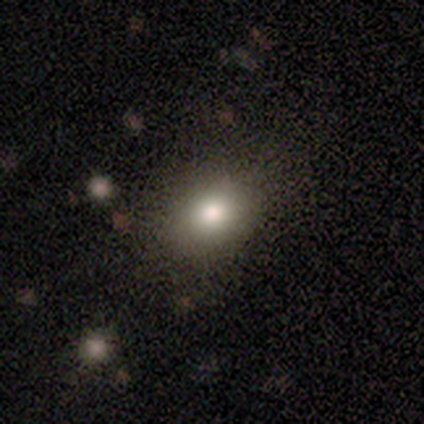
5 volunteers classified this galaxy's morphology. smooth-or-featured: smooth: 100% | featured or disk: 0% | star or artifact: 0%
  how-rounded: round: 60% | in between: 40% | cigar-shaped: 0%
  merging: none: 80% | major disturbance: 20% | minor disturbance: 0% | merger: 0%